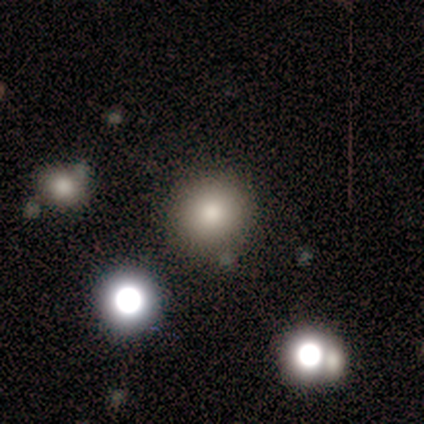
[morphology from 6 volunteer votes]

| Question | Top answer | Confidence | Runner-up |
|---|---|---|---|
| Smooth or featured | smooth | 50% | star or artifact (33%) |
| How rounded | round | 100% | — |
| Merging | none | 75% | merger (25%) |